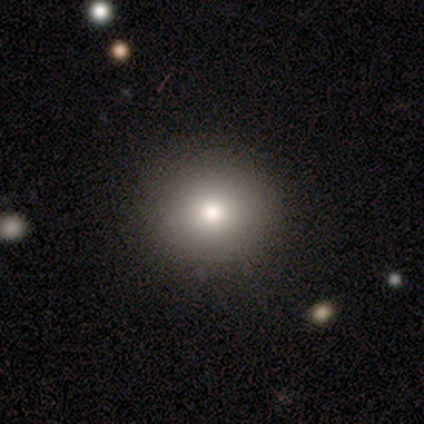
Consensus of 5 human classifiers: Smooth or featured?
  - smooth: 80% *
  - featured or disk: 20%
  - star or artifact: 0%
How rounded?
  - round: 75% *
  - in between: 25%
  - cigar-shaped: 0%
Merging?
  - none: 100% *
  - minor disturbance: 0%
  - major disturbance: 0%
  - merger: 0%